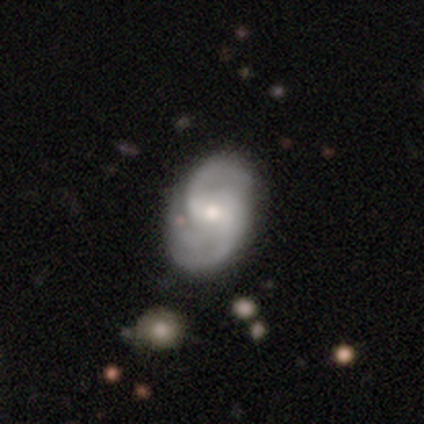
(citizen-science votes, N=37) featured or disk 95%, smooth 5%, star or artifact 0%. Down the decision tree: edge-on disk — no (100%); bar — weak (51%); spiral arms — yes (100%); spiral arm count — 2 (74%); spiral winding — medium (54%); bulge size — moderate (51%); merging — none (73%).